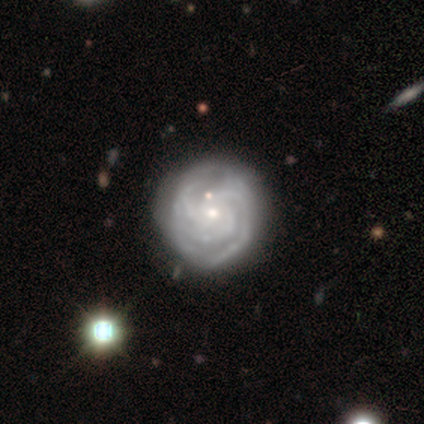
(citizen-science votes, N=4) Volunteers were most divided on "spiral arm count": 3: 50%, 2: 25%, can't tell: 25%, 1: 0%, 4: 0%, more than 4: 0%. More confident: smooth or featured — featured or disk (100%); edge-on disk — no (100%); bar — no (100%); spiral arms — yes (100%); spiral winding — tight (75%); bulge size — small (75%); merging — none (75%).